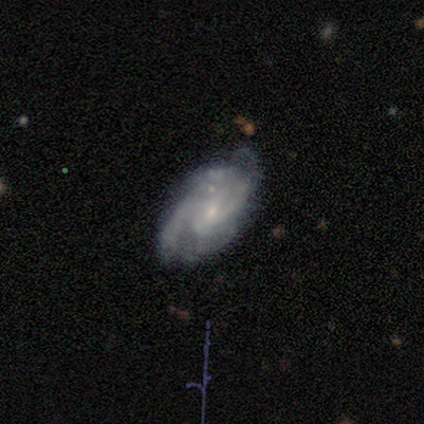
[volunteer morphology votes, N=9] This is clearly a featured or disk galaxy (89%). It is clearly not viewed edge-on (100%). Bar: possibly weak (50%, tied with no). Spiral arm pattern: clearly yes (100%). Spiral arm count: possibly can't tell (50%). Spiral winding: likely medium (62%). Central bulge: clearly small (88%). Merging: likely none (67%).